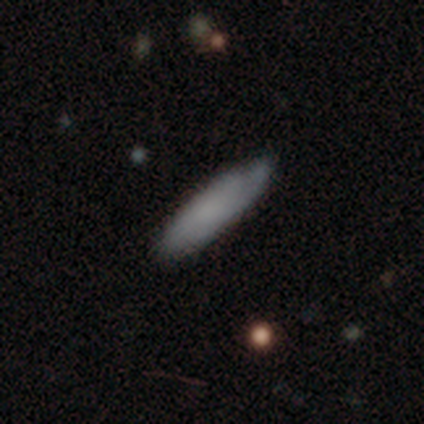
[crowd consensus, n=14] Volunteers were most divided on "how rounded": cigar-shaped: 55%, in between: 45%, round: 0%. More confident: smooth or featured — smooth (79%); merging — none (62%).